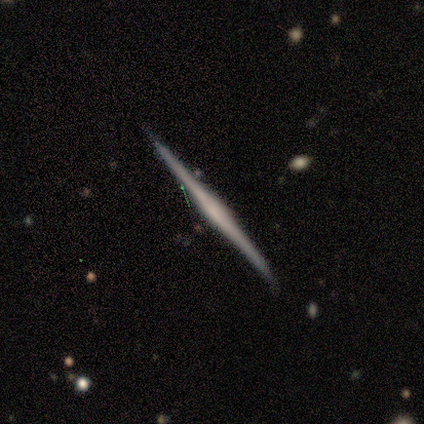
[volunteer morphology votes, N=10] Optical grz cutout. It shows a featured or disk galaxy (90%) viewed edge-on (100%) with no central bulge (44%). Merging: none (90%).